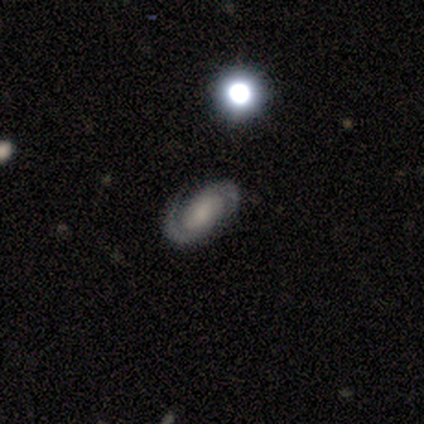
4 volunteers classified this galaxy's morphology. Smooth or featured? featured or disk (75%)
Edge-on disk? no (100%)
Bar? no (67%)
Spiral arms? yes (100%)
Spiral winding? medium (67%)
Spiral arm count? 2 (100%)
Bulge size? none (67%)
Merging? none (100%)